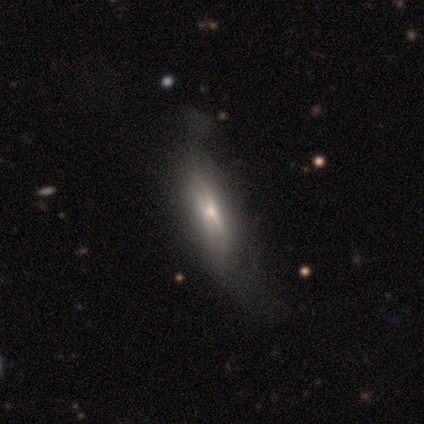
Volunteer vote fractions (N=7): Volunteers were most divided on "smooth or featured": smooth: 57%, featured or disk: 43%, star or artifact: 0%. More confident: how rounded — cigar-shaped (75%); merging — none (57%).